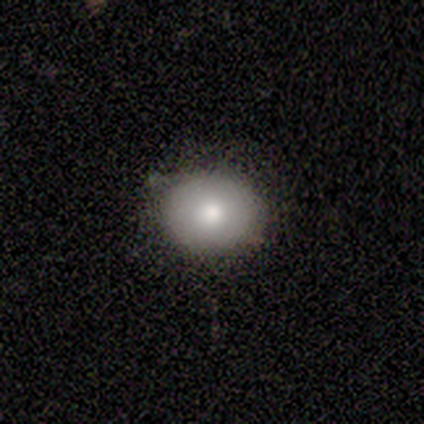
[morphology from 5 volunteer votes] Overall: smooth (100%). How rounded: round (80%). Merging: none (100%).